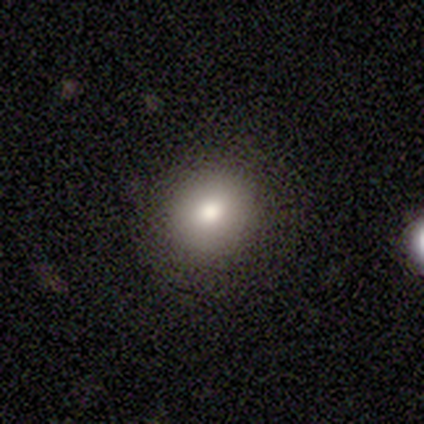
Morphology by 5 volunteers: A smooth galaxy with no disk features (80%) that is round (75%). Merging: none (60%).